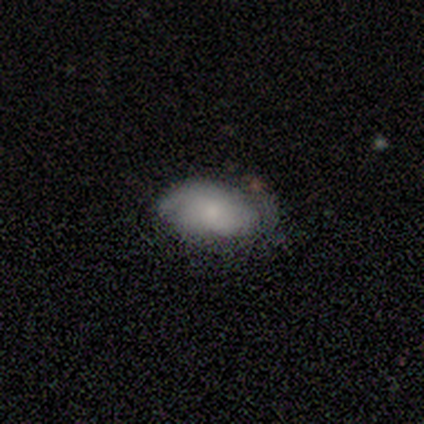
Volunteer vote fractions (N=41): Q: Smooth or featured?
A: smooth (73%); runner-up: featured or disk (20%)
Q: How rounded?
A: in between (100%)
Q: Merging?
A: none (58%); runner-up: minor disturbance (29%)